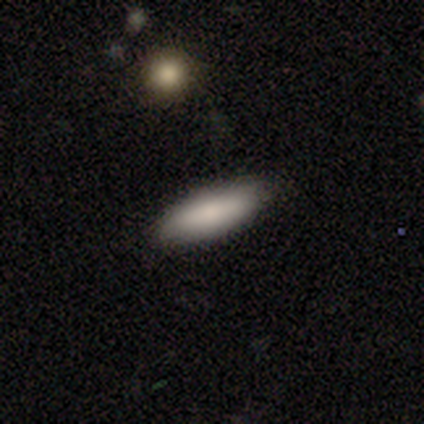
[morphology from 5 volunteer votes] smooth-or-featured: smooth: 100% | featured or disk: 0% | star or artifact: 0%
  how-rounded: in between: 60% | cigar-shaped: 40% | round: 0%
  merging: none: 80% | minor disturbance: 20% | major disturbance: 0% | merger: 0%